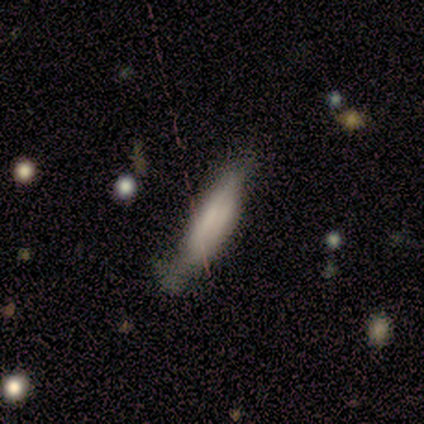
Morphology: type=smooth (60%); roundness=cigar-shaped (100%); merging=major disturbance (50%).